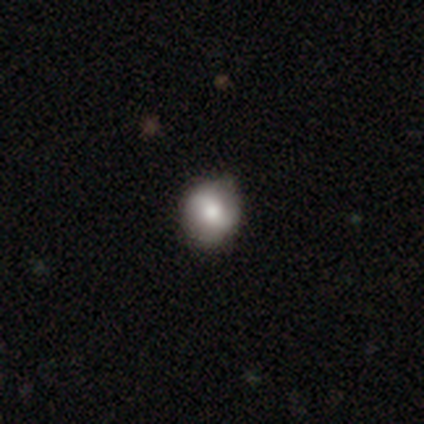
Overall: smooth (100%). How rounded: round (71%). Merging: none (57%; minor disturbance 43%).